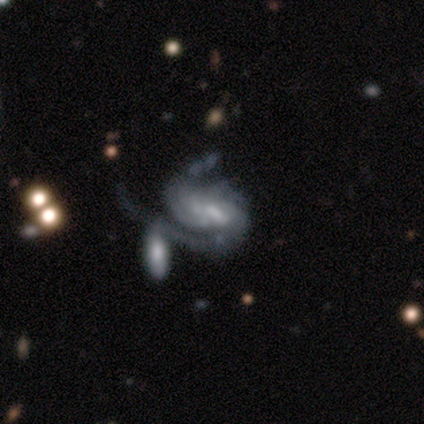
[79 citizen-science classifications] This appears to be a featured or disk galaxy (96%) with a weak bar (57%), 2 (44%) medium (39%, tied with loose) spiral arms (95%) and a moderate central bulge (39%). Merging: major disturbance (27%).